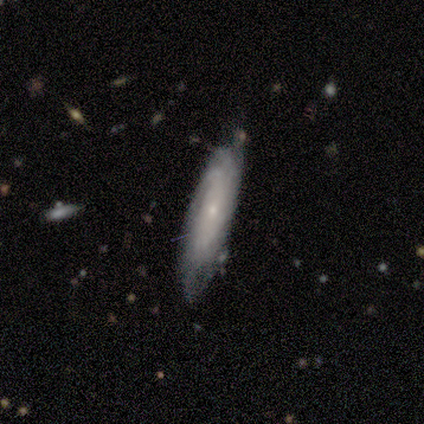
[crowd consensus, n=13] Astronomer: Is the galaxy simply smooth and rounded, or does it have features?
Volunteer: featured or disk — 85%.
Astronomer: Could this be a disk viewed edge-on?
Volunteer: no — 91%.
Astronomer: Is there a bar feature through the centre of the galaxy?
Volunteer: no — 80%.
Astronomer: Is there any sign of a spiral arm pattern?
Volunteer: yes — 100%.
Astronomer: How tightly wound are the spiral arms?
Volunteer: tight — 60%.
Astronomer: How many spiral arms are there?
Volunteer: can't tell — 60%.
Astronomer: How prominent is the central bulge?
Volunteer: small — 90%.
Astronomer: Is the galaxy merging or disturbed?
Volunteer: none — 50% (runner-up: minor disturbance, 33%).